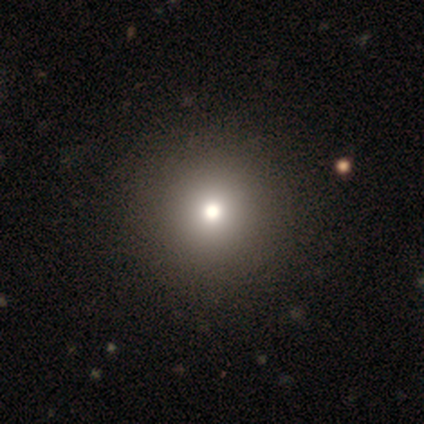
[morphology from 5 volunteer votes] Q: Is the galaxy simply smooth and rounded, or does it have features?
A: smooth — 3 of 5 (60%).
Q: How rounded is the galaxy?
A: round — 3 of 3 (100%).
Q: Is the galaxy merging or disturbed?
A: none — 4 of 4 (100%).